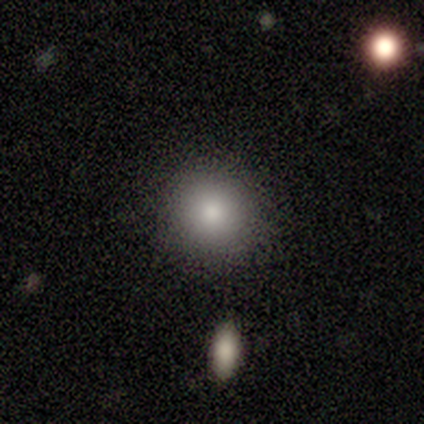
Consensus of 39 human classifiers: Smooth or featured? smooth (85%)
How rounded? round (97%)
Merging? none (91%)